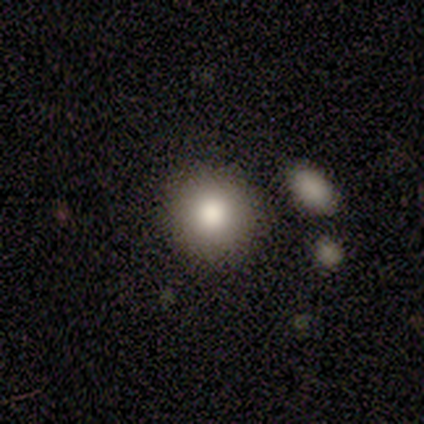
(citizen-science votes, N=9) smooth_or_featured: smooth (p=0.89) [alt: featured or disk p=0.11]
how_rounded: round (p=0.88) [alt: in between p=0.12]
merging: none (p=0.89) [alt: minor disturbance p=0.11]